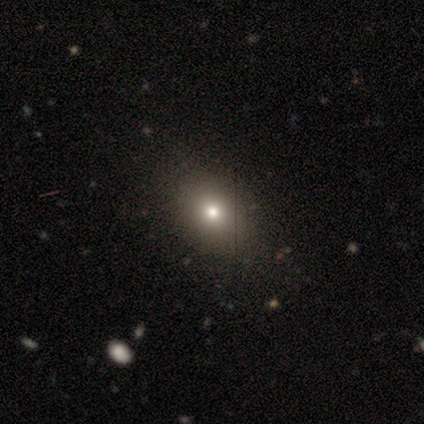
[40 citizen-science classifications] smooth-or-featured: smooth: 80% | star or artifact: 12% | featured or disk: 8%
  how-rounded: in between: 66% | round: 34% | cigar-shaped: 0%
  merging: none: 57% | minor disturbance: 11% | merger: 3% | major disturbance: 0%